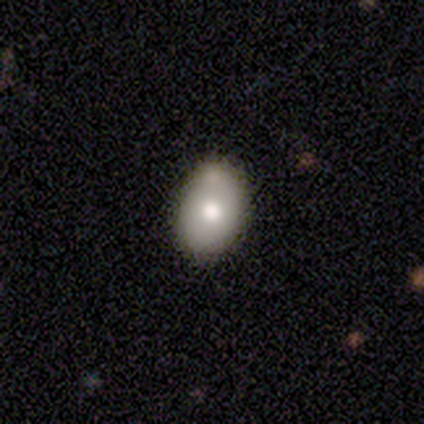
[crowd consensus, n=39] Smooth or featured? smooth (69%)
How rounded? in between (74%)
Merging? none (69%)